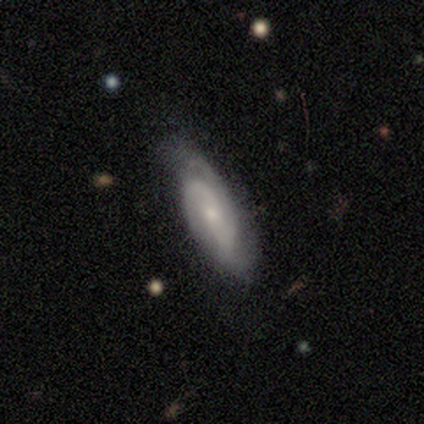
Smooth or featured? featured or disk (80%)
Edge-on disk? no (94%)
Bar? no (63%)
Spiral arms? yes (90%)
Spiral winding? tight (41%, tied with medium)
Spiral arm count? 2 (52%)
Bulge size? small (63%)
Merging? none (75%)